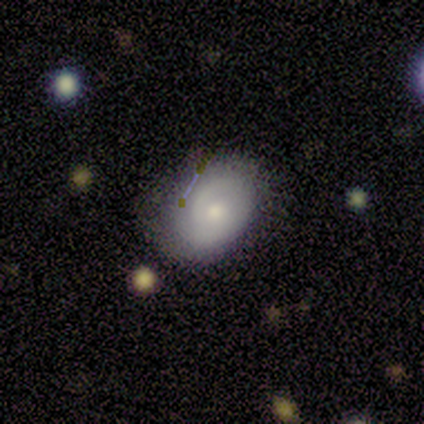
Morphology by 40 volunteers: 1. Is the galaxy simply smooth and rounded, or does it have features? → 52% featured or disk, 40% smooth, 8% star or artifact.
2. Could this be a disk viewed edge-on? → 95% no, 5% yes.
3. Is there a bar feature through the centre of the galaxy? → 80% no, 20% weak, 0% strong.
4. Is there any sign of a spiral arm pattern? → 80% yes, 20% no.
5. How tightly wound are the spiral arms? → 62% medium, 31% tight, 6% loose.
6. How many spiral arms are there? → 44% can't tell, 38% 2, 19% 1, 0% 3, 0% 4, 0% more than 4.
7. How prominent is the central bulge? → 45% moderate, 40% small, 10% large, 5% dominant, 0% none.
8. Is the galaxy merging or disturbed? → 68% none, 30% minor disturbance, 3% major disturbance, 0% merger.